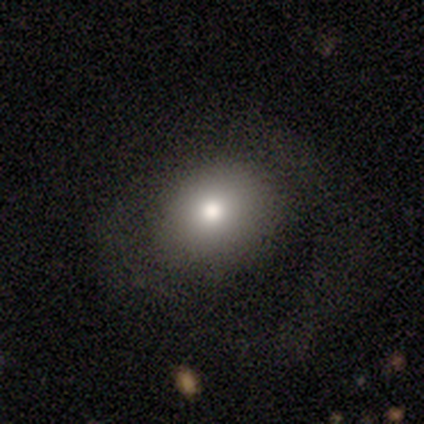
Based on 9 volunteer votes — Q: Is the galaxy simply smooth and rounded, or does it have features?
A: smooth — 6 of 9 (67%).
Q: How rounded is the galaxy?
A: round — 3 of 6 (50%, tied with in between).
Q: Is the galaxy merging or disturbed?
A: none — 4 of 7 (57%).